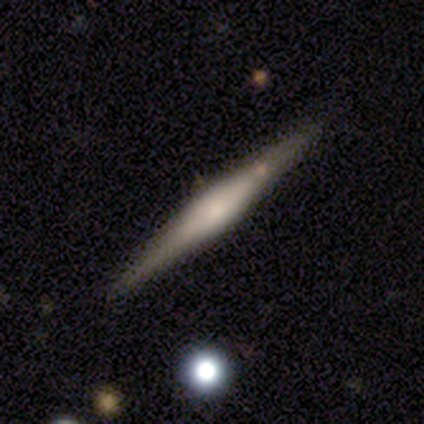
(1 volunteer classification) smooth_or_featured: featured or disk (p=1.00)
disk_edge_on: yes (p=1.00)
edge_on_bulge: rounded (p=1.00)
merging: minor disturbance (p=1.00)